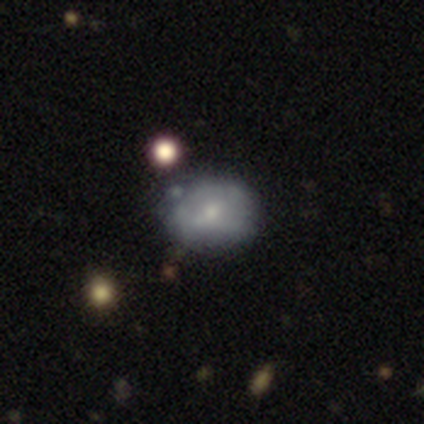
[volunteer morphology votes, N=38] Smooth or featured?
  - smooth: 55% *
  - featured or disk: 42%
  - star or artifact: 3%
How rounded?
  - round: 67% *
  - in between: 33%
  - cigar-shaped: 0%
Merging?
  - none: 46% *
  - minor disturbance: 38%
  - major disturbance: 14%
  - merger: 3%